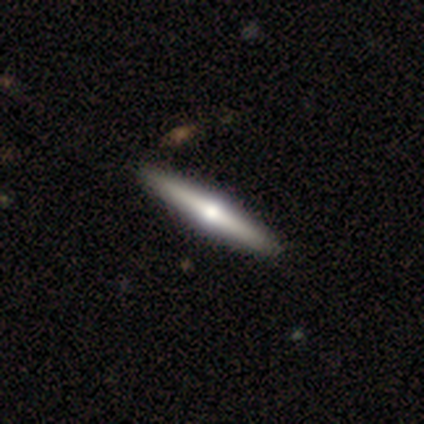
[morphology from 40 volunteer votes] smooth_or_featured: featured or disk (p=0.68) [alt: smooth p=0.30]
disk_edge_on: yes (p=1.00)
edge_on_bulge: rounded (p=0.96) [alt: boxy p=0.04]
merging: none (p=0.79) [alt: merger p=0.03]